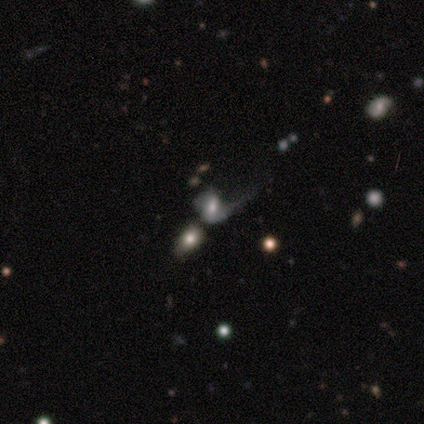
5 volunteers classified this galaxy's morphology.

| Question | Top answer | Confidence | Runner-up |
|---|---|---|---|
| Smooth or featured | smooth | 60% | featured or disk (20%) |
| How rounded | in between | 100% | — |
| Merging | major disturbance | 75% | merger (25%) |